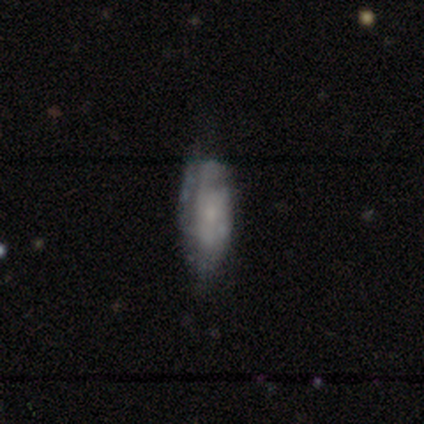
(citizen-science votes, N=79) featured or disk 70%, smooth 25%, star or artifact 5%. Down the decision tree: edge-on disk — no (95%); bar — no (90%); spiral arms — yes (52%); spiral arm count — can't tell (67%); spiral winding — tight (48%); bulge size — none (44%); merging — none (33%).